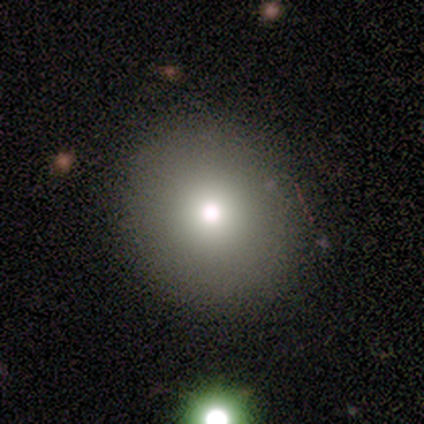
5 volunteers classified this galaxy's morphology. Smooth or featured? smooth (100%)
How rounded? round (100%)
Merging? none (100%)